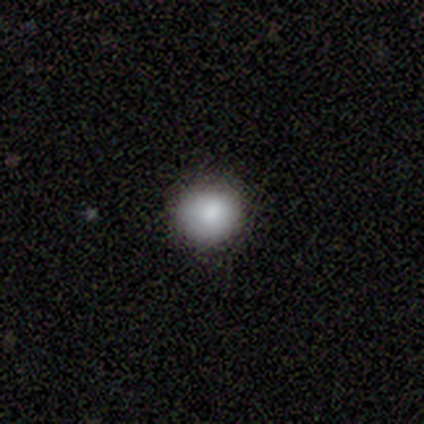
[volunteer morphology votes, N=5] smooth_or_featured: smooth (p=0.80) [alt: featured or disk p=0.20]
how_rounded: round (p=1.00)
merging: none (p=0.80) [alt: major disturbance p=0.20]